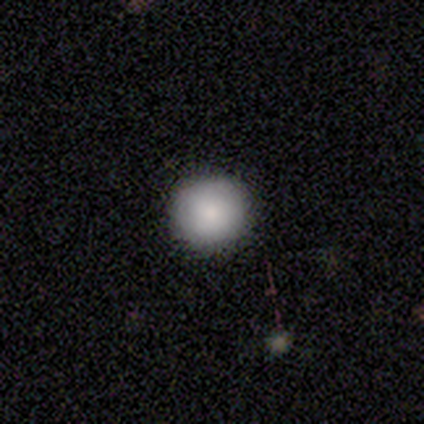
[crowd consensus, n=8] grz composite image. It shows a smooth galaxy with no disk features (62%) that is round (100%). Merging: none (71%).